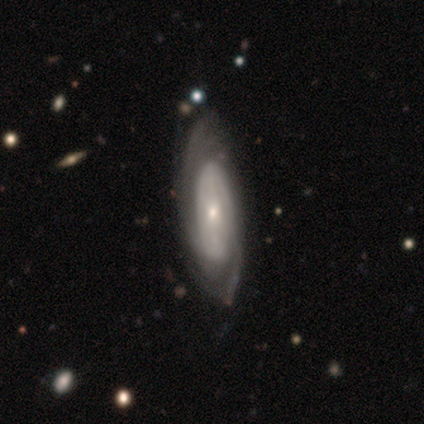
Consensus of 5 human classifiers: This is clearly a featured or disk galaxy (100%). It is likely not viewed edge-on (60%). Bar: likely no (67%). Spiral arm pattern: clearly yes (100%). Spiral arm count: likely can't tell (67%). Spiral winding: clearly tight (100%). Central bulge: marginally large (33%, tied with moderate and small). Merging: likely none (60%).